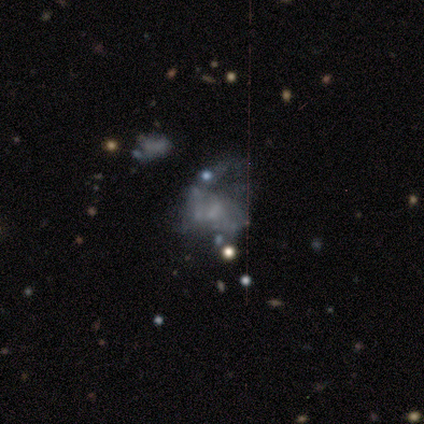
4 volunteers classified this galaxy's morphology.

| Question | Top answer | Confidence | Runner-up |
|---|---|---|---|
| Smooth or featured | featured or disk | 75% | smooth (25%) |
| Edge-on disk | no | 100% | — |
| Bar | no | 67% | weak (33%) |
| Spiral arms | no | 67% | yes (33%) |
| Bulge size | none | 67% | small (33%) |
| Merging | minor disturbance | 50% | tied: major disturbance (50%) |